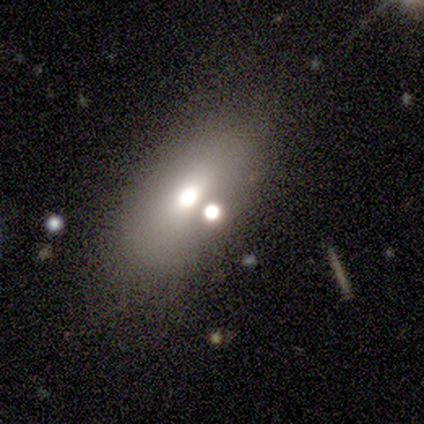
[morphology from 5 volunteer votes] Smooth or featured: smooth — 80% (featured or disk — 20%)
How rounded: in between — 75% (round — 25%)
Merging: none — 80% (merger — 20%)